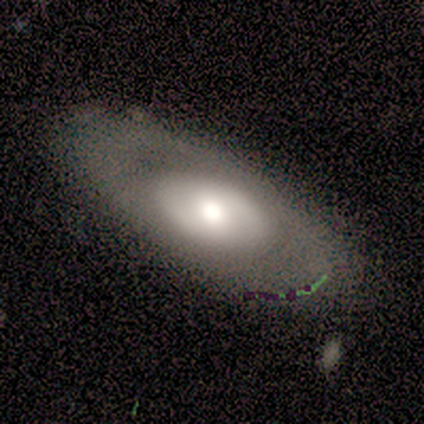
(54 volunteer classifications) smooth-or-featured: featured or disk: 74% | smooth: 26% | star or artifact: 0%
  disk-edge-on: no: 98% | yes: 2%
    bar: no: 72% | weak: 18% | strong: 10%
    has-spiral-arms: no: 79% | yes: 21%
    bulge-size: moderate: 49% | large: 38% | dominant: 8% | small: 5% | none: 0%
  merging: none: 63% | minor disturbance: 24% | major disturbance: 11% | merger: 2%